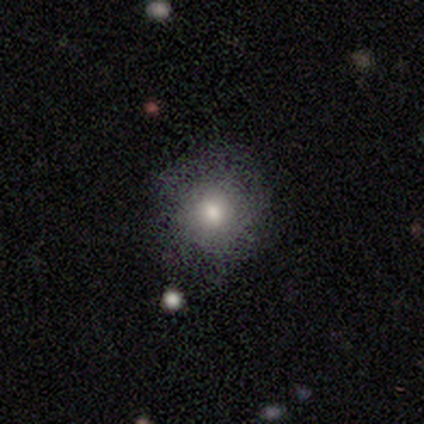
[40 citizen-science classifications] Morphology: type=smooth (78%); roundness=round (81%); merging=none (74%).